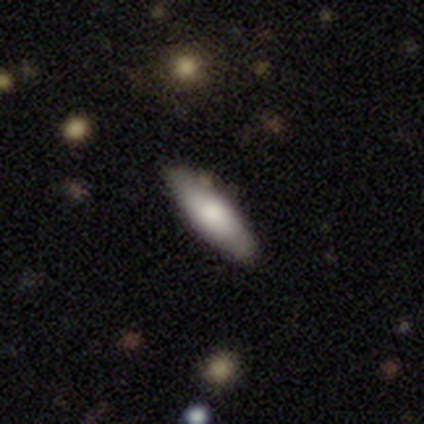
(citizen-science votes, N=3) A smooth galaxy with no disk features (67%) that is in between round and cigar-shaped (50%, tied with cigar-shaped).

Vote fractions:
- Smooth or featured? smooth: 67% / featured or disk: 33% / star or artifact: 0%
- How rounded? in between: 50% (tied) / cigar-shaped: 50% (tied) / round: 0%
- Merging? none: 67% / minor disturbance: 33% / major disturbance: 0% / merger: 0%